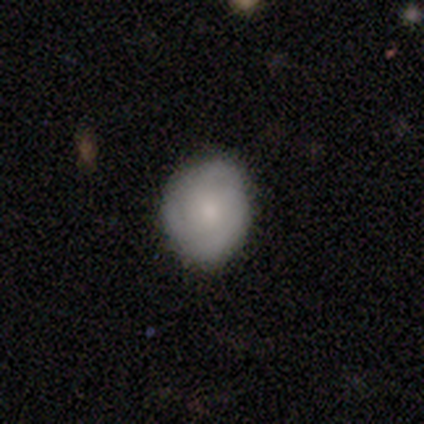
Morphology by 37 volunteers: smooth 70%, featured or disk 22%, star or artifact 8%. Down the decision tree: how rounded — round (58%); merging — none (71%).